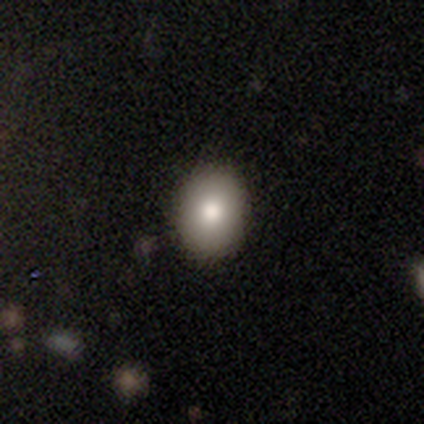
A smooth galaxy with no disk features (80%) that is in between round and cigar-shaped (69%).

Vote fractions:
- Smooth or featured? smooth: 80% / featured or disk: 10% / star or artifact: 10%
- How rounded? in between: 69% / round: 31% / cigar-shaped: 0%
- Merging? none: 50% / minor disturbance: 6% / merger: 3% / major disturbance: 0%